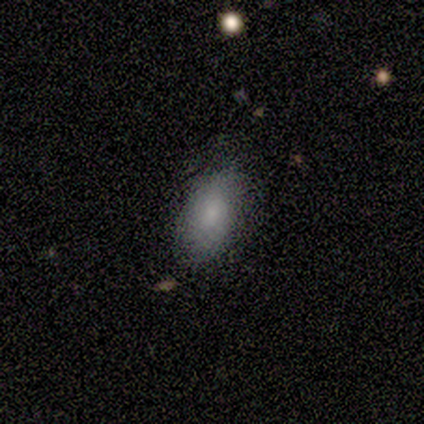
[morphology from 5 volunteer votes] This is likely a featured or disk galaxy (60%). It is clearly not viewed edge-on (100%). Bar: clearly no (100%). Spiral arm pattern: likely no (67%). Central bulge: likely small (67%). Merging: clearly none (100%).